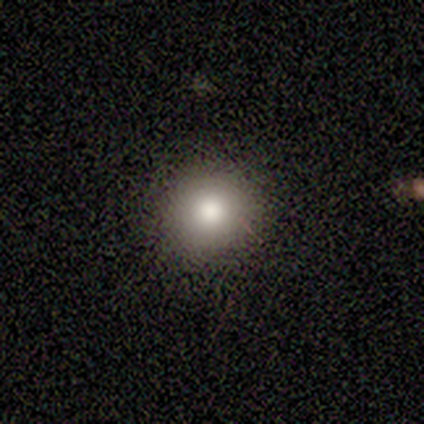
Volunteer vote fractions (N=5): A smooth galaxy with no disk features (80%) that is round (100%). Merging: none (100%).